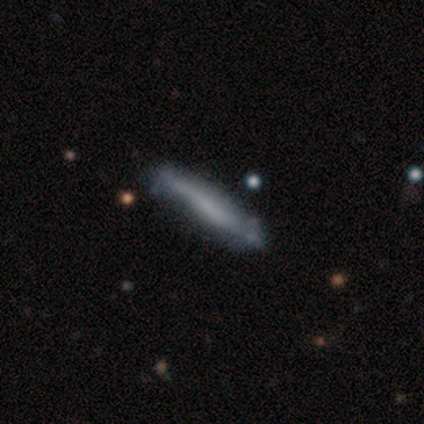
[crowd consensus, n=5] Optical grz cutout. It shows a smooth galaxy with no disk features (40%, tied with star or artifact) that is cigar-shaped (100%). Merging: none (100%).